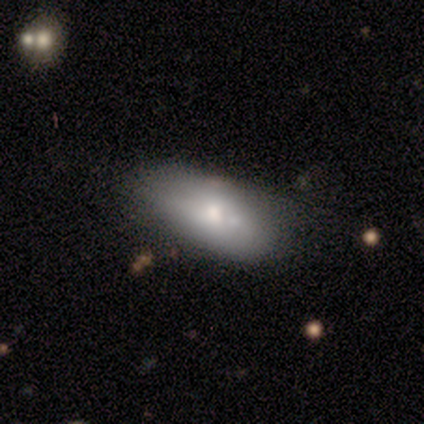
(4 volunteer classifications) This is likely a smooth galaxy (75%). How rounded: clearly in between (100%). Merging: likely none (75%).